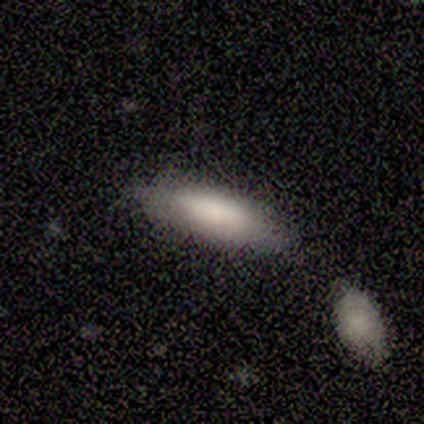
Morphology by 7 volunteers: Q: Smooth or featured?
A: smooth (86%); runner-up: star or artifact (14%)
Q: How rounded?
A: in between (83%); runner-up: cigar-shaped (17%)
Q: Merging?
A: none (67%); runner-up: minor disturbance (33%)